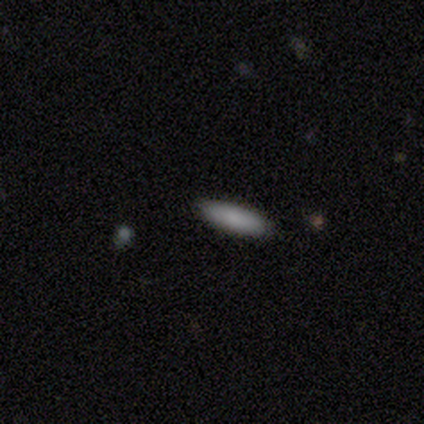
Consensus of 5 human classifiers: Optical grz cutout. It shows a smooth galaxy with no disk features (100%) that is cigar-shaped (80%). Merging: none (100%).